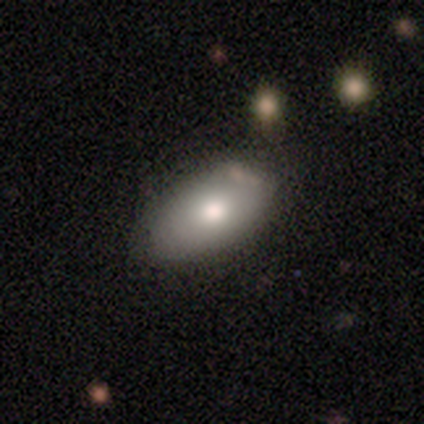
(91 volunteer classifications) A smooth galaxy with no disk features (76%) that is in between round and cigar-shaped (90%). Merging: none (66%).